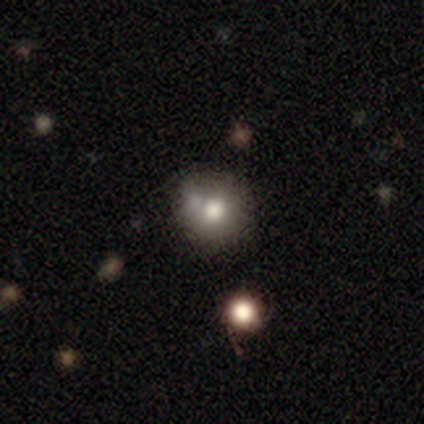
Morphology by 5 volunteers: type=smooth (60%); roundness=round (67%); merging=none (33%, tied with major disturbance and merger).